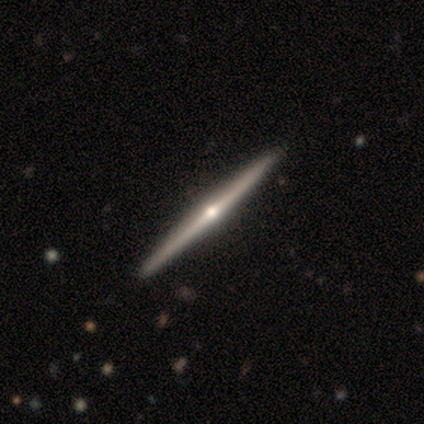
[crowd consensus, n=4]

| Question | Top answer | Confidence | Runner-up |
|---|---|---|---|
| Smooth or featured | featured or disk | 100% | — |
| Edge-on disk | yes | 100% | — |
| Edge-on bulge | rounded | 100% | — |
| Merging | none | 100% | — |